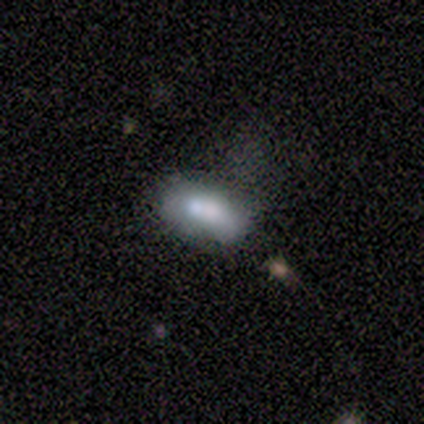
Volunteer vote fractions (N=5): Smooth or featured?
  - smooth: 60% *
  - star or artifact: 40%
  - featured or disk: 0%
How rounded?
  - in between: 100% *
  - round: 0%
  - cigar-shaped: 0%
Merging?
  - none: 100% *
  - minor disturbance: 0%
  - major disturbance: 0%
  - merger: 0%